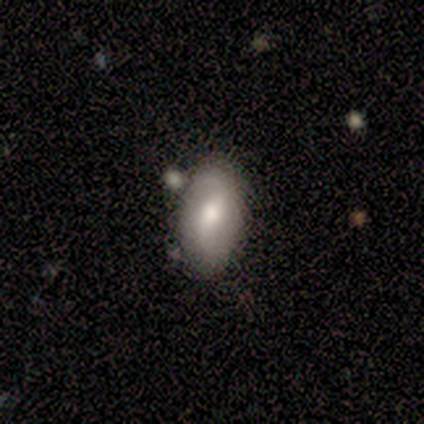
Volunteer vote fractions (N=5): smooth-or-featured: featured or disk: 60% | smooth: 40% | star or artifact: 0%
  disk-edge-on: no: 100% | yes: 0%
    bar: weak: 67% | strong: 33% | no: 0%
    has-spiral-arms: yes: 67% | no: 33%
      spiral-winding: medium: 50% (tied) | loose: 50% (tied) | tight: 0%
      spiral-arm-count: 2: 100% | 1: 0% | 3: 0% | 4: 0% | more than 4: 0% | can't tell: 0%
    bulge-size: moderate: 67% | large: 33% | dominant: 0% | small: 0% | none: 0%
  merging: none: 60% | major disturbance: 20% | merger: 20% | minor disturbance: 0%